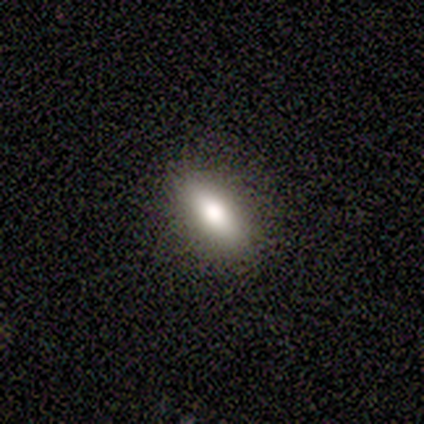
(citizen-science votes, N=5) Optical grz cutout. It shows a smooth galaxy with no disk features (80%) that is in between round and cigar-shaped (100%). Merging: none (80%).